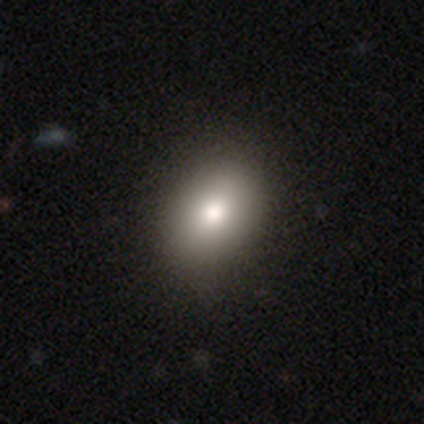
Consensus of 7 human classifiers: smooth-or-featured: smooth: 71% | featured or disk: 14% | star or artifact: 14%
  how-rounded: round: 60% | in between: 40% | cigar-shaped: 0%
  merging: none: 100% | minor disturbance: 0% | major disturbance: 0% | merger: 0%